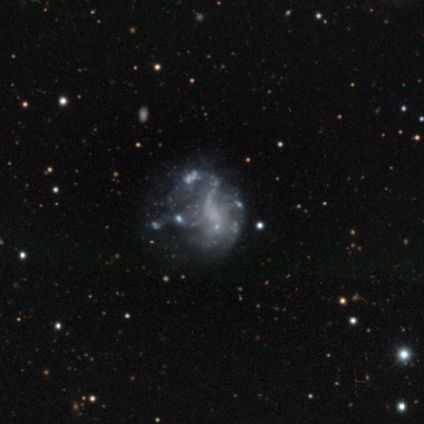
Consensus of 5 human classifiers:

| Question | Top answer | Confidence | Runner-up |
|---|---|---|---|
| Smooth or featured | featured or disk | 60% | smooth (20%) |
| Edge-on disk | no | 100% | — |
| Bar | no | 100% | — |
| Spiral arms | no | 100% | — |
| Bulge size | none | 67% | small (33%) |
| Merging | none | 75% | minor disturbance (25%) |